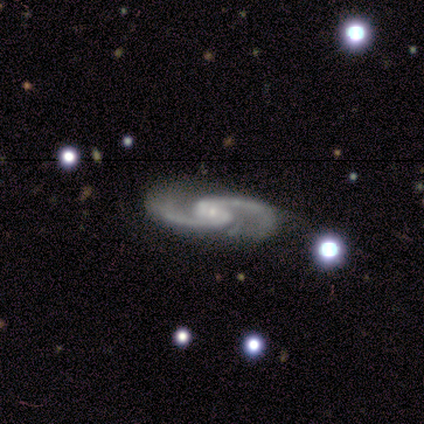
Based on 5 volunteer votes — smooth-or-featured: featured or disk: 100% | smooth: 0% | star or artifact: 0%
  disk-edge-on: no: 80% | yes: 20%
    bar: weak: 50% | strong: 25% | no: 25%
    has-spiral-arms: yes: 100% | no: 0%
      spiral-winding: medium: 75% | loose: 25% | tight: 0%
      spiral-arm-count: 2: 100% | 1: 0% | 3: 0% | 4: 0% | more than 4: 0% | can't tell: 0%
    bulge-size: small: 75% | moderate: 25% | dominant: 0% | large: 0% | none: 0%
  merging: none: 60% | minor disturbance: 40% | major disturbance: 0% | merger: 0%